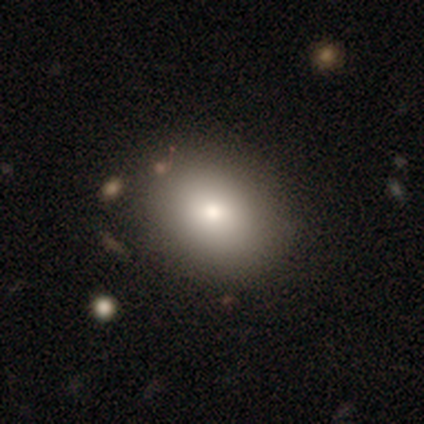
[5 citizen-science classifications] Smooth or featured? smooth (100%)
How rounded? round (60%)
Merging? none (80%)